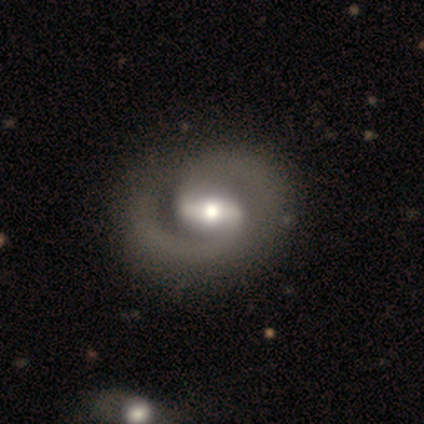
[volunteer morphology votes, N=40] Overall: featured or disk (85%). Edge-on disk: no (97%). Bar: strong (55%; weak 36%). Spiral arms: yes (97%). Spiral arm count: 2 (97%). Spiral winding: medium (53%; tight 28%). Bulge size: moderate (70%). Merging: none (50%; minor disturbance 15%).